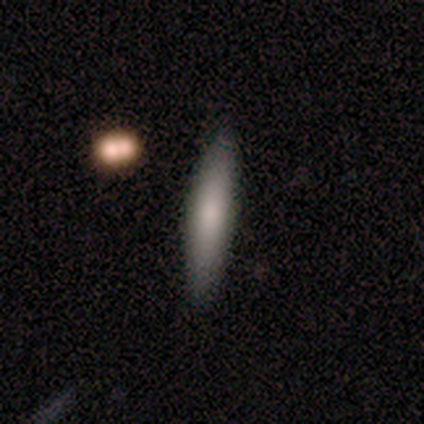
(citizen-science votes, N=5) Volunteers were most divided on "smooth or featured": smooth: 80%, featured or disk: 20%, star or artifact: 0%. More confident: how rounded — cigar-shaped (100%); merging — none (100%).